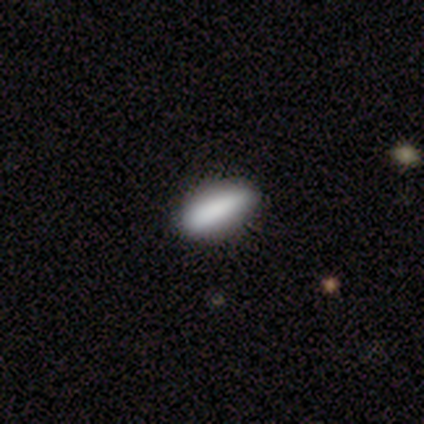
A smooth galaxy with no disk features (60%) that is cigar-shaped (67%). Merging: none (60%).